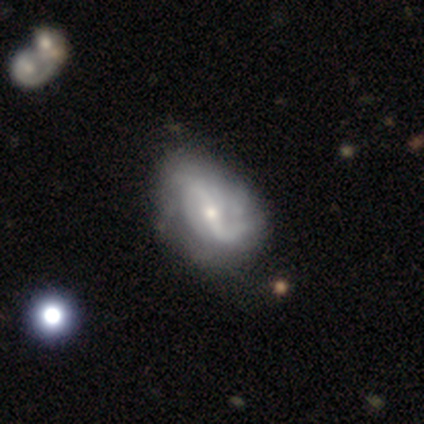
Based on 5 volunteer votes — This appears to be a featured or disk galaxy (80%) with a weak bar (75%), 2 (33%, tied with 4 and can't tell) tight (33%, tied with medium and loose) spiral arms (75%) and a small central bulge (100%). Merging: none (40%, tied with minor disturbance).